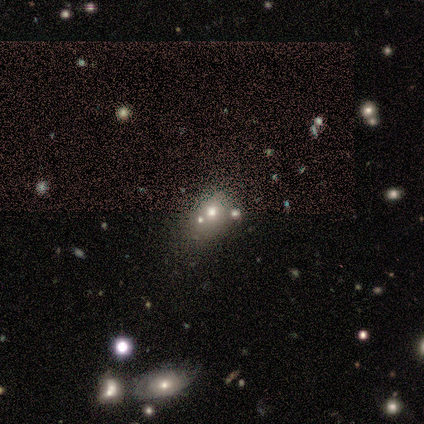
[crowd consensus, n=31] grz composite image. It shows a smooth galaxy with no disk features (45%) that is round (50%, tied with in between). Merging: none (57%).